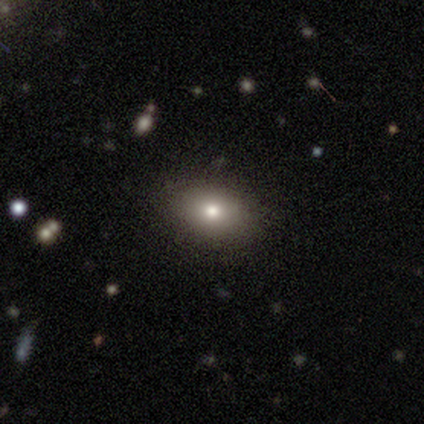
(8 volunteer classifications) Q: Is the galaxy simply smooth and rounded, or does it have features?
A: smooth — 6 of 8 (75%).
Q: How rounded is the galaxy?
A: in between — 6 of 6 (100%).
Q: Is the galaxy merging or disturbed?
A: none — 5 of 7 (71%).